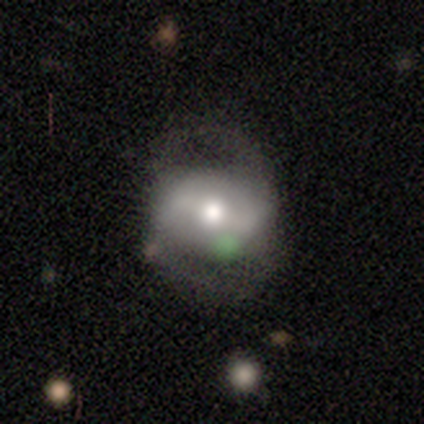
Smooth or featured: smooth — 50% (tied with featured or disk — 50%)
How rounded: round — 100%
Merging: none — 75% (major disturbance — 25%)